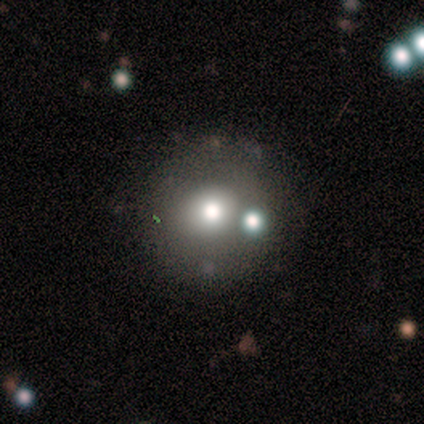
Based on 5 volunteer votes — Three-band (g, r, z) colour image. It shows a featured or disk galaxy (60%) with no bar (100%), no spiral arms (100%) and a moderate central bulge (67%). Merging: none (60%).